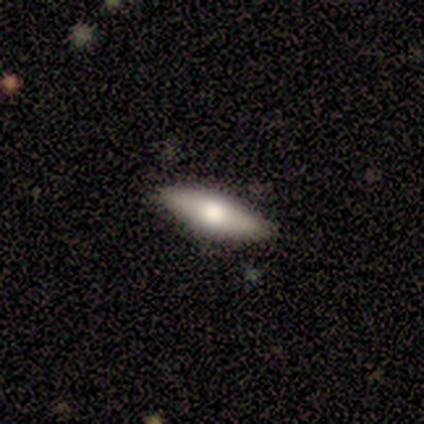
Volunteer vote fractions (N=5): Smooth or featured: smooth — 60% (featured or disk — 20%)
How rounded: cigar-shaped — 67% (in between — 33%)
Merging: none — 100%